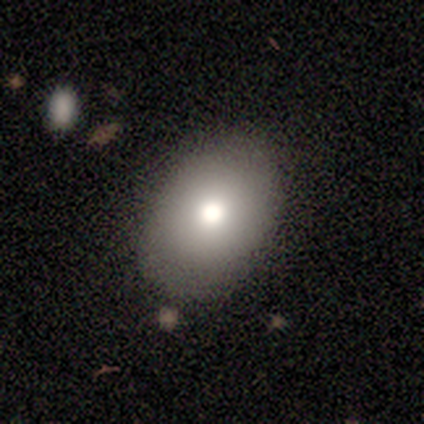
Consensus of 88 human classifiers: Smooth or featured? 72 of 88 (82%) said smooth. How rounded? 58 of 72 (81%) said in between. Merging? 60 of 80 (75%) said none.